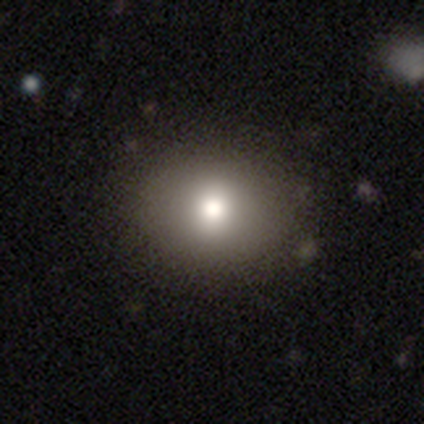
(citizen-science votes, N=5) Smooth or featured?
  - smooth: 80% *
  - featured or disk: 20%
  - star or artifact: 0%
How rounded?
  - in between: 75% *
  - round: 25%
  - cigar-shaped: 0%
Merging?
  - none: 80% *
  - minor disturbance: 20%
  - major disturbance: 0%
  - merger: 0%